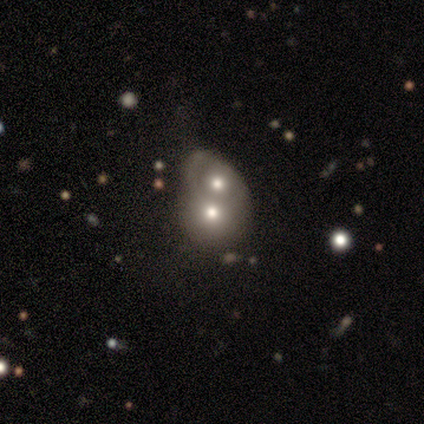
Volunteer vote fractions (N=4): Smooth or featured: featured or disk — 75% (smooth — 25%)
Edge-on disk: no — 100%
Bar: no — 100%
Spiral arms: no — 67% (yes — 33%)
Bulge size: moderate — 67% (none — 33%)
Merging: merger — 50% (none — 25%)